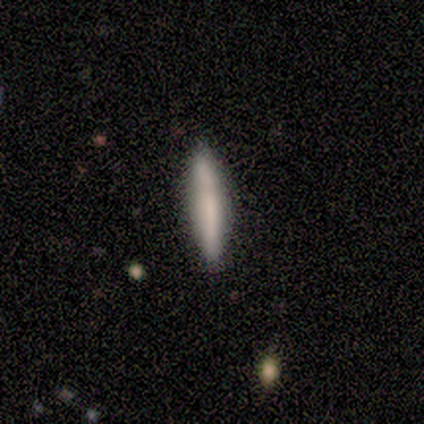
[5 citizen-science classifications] This is clearly a smooth galaxy (100%). How rounded: clearly cigar-shaped (100%). Merging: likely minor disturbance (60%).